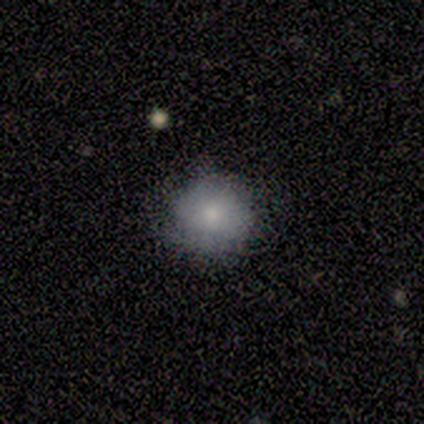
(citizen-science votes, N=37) A smooth galaxy with no disk features (73%) that is round (89%).

Vote fractions:
- Smooth or featured? smooth: 73% / featured or disk: 16% / star or artifact: 11%
- How rounded? round: 89% / in between: 11% / cigar-shaped: 0%
- Merging? none: 79% / minor disturbance: 21% / major disturbance: 0% / merger: 0%